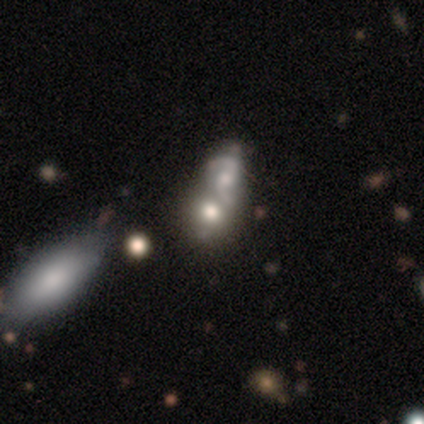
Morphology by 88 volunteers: A featured or disk galaxy (52%) with no bar (61%), 2 (97%) loose (45%) spiral arms (66%) and a moderate central bulge (45%). Merging: merger (70%).